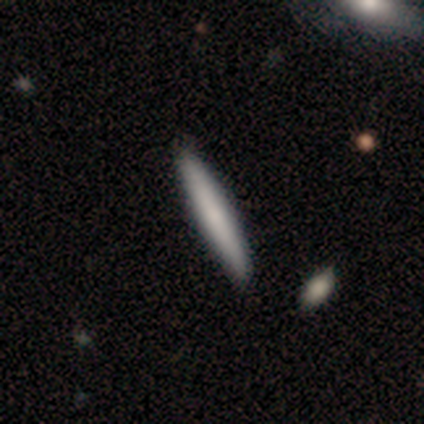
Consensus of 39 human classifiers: This appears to be a smooth galaxy with no disk features (79%) that is cigar-shaped (97%). Merging: none (94%).